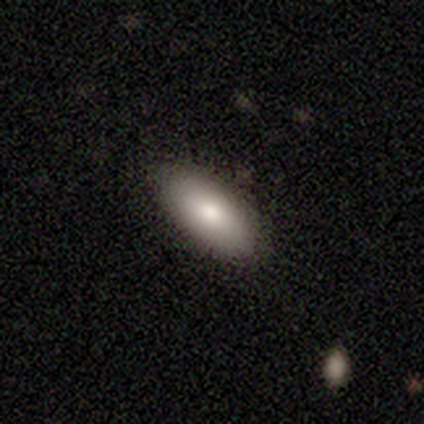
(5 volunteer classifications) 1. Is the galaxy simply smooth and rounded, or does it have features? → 80% smooth, 20% featured or disk, 0% star or artifact.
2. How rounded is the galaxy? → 75% in between, 25% cigar-shaped, 0% round.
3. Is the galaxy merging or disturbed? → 100% none, 0% minor disturbance, 0% major disturbance, 0% merger.